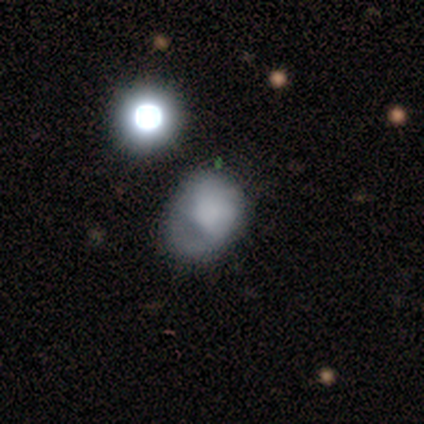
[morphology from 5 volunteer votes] This appears to be a smooth galaxy with no disk features (100%) that is round (60%). Merging: none (60%).